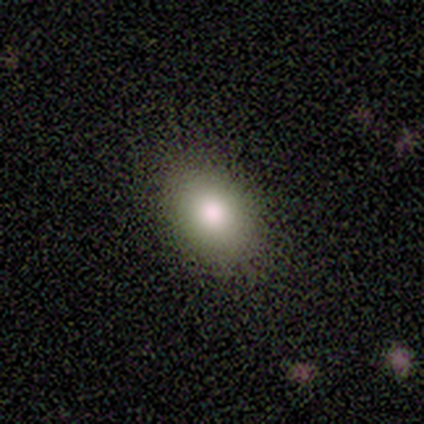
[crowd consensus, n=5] Q: Smooth or featured?
A: smooth (80%); runner-up: featured or disk (20%)
Q: How rounded?
A: in between (100%)
Q: Merging?
A: none (100%)